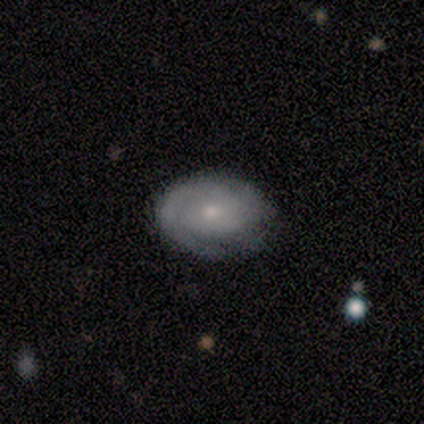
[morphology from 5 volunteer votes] Smooth or featured: featured or disk — 60% (smooth — 40%)
Edge-on disk: no — 100%
Bar: no — 100%
Spiral arms: yes — 100%
Spiral winding: tight — 67% (loose — 33%)
Spiral arm count: 1 — 33% (tied with 2 — 33%; can't tell — 33%)
Bulge size: moderate — 67% (small — 33%)
Merging: none — 80% (minor disturbance — 20%)